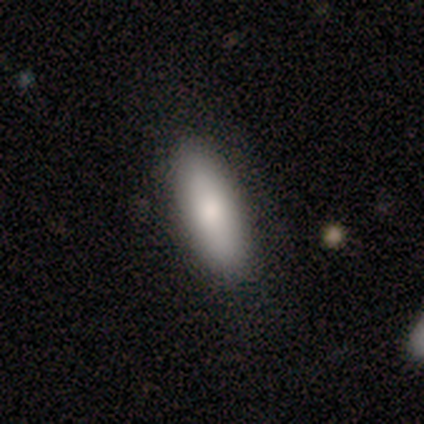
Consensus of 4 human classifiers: Volunteers were most divided on "merging": none: 67%, minor disturbance: 33%, major disturbance: 0%, merger: 0%. More confident: how rounded — in between (100%); smooth or featured — smooth (75%).